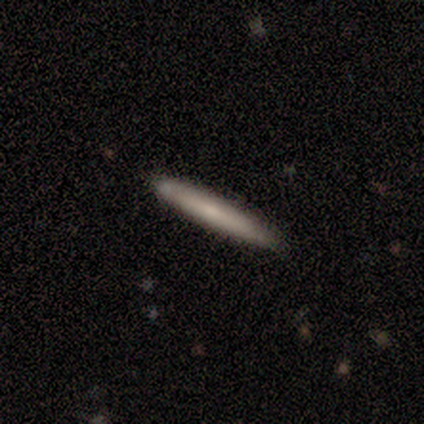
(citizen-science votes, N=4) Overall: smooth (100%). How rounded: cigar-shaped (100%). Merging: none (75%).